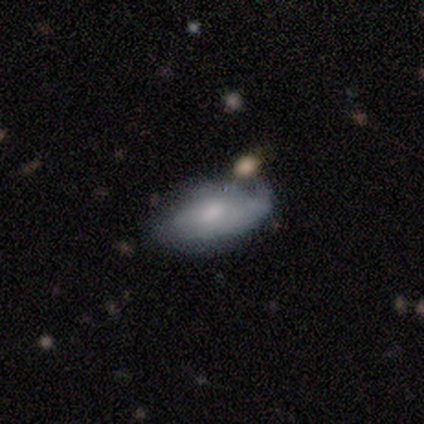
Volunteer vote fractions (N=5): Smooth or featured? smooth (60%)
How rounded? in between (67%)
Merging? none (60%)